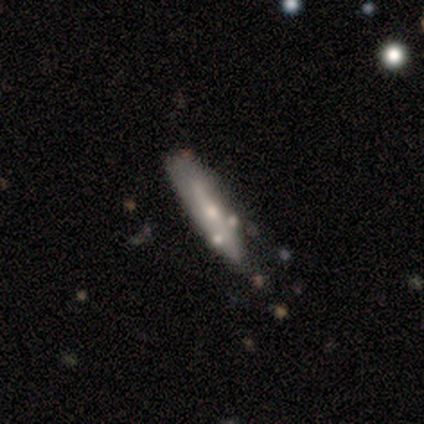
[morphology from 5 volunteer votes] type=featured or disk (60%); edge-on=yes (67%); edge-on bulge=rounded (100%); merging=none (60%).